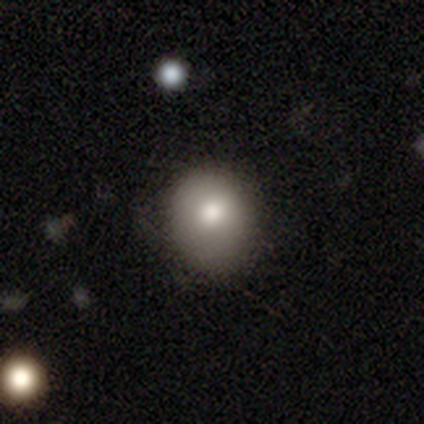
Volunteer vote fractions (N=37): A smooth galaxy with no disk features (78%) that is round (62%). Merging: none (64%).